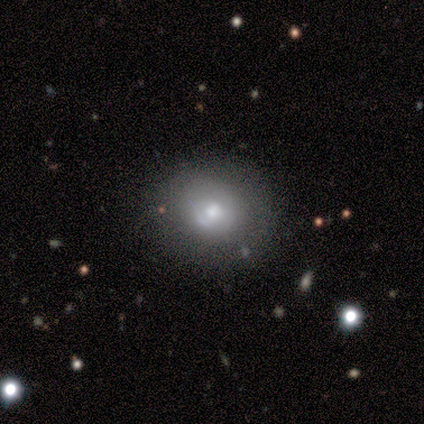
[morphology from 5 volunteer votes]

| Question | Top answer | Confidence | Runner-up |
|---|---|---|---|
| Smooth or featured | smooth | 60% | featured or disk (40%) |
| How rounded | round | 100% | — |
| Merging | none | 60% | minor disturbance (20%) |